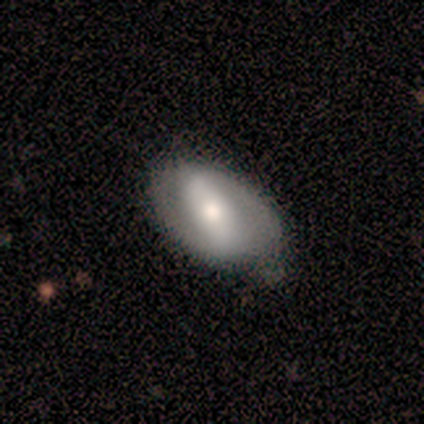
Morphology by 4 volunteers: smooth_or_featured: smooth (p=0.50) [alt: featured or disk p=0.25]
how_rounded: in between (p=1.00)
merging: minor disturbance (p=0.67) [alt: none p=0.33]